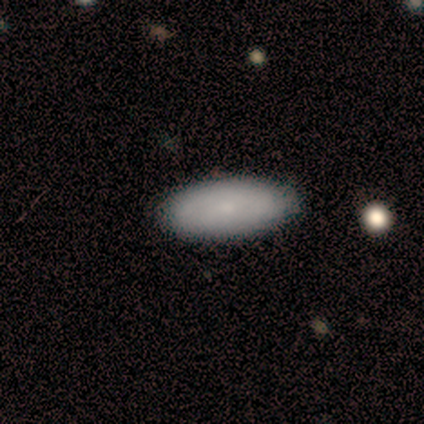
smooth 55%, featured or disk 45%, star or artifact 0%. Down the decision tree: how rounded — in between (100%); merging — none (82%).